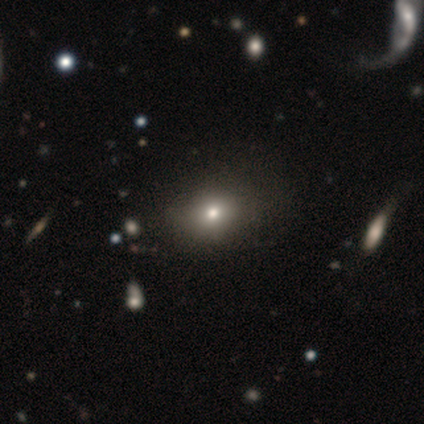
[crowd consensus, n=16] This appears to be a smooth galaxy with no disk features (56%) that is round (56%). Merging: none (60%).